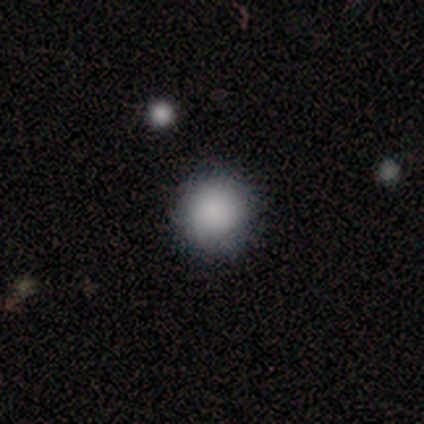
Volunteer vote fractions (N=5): Consensus on every question: smooth or featured — smooth (100%); how rounded — round (100%); merging — none (100%).